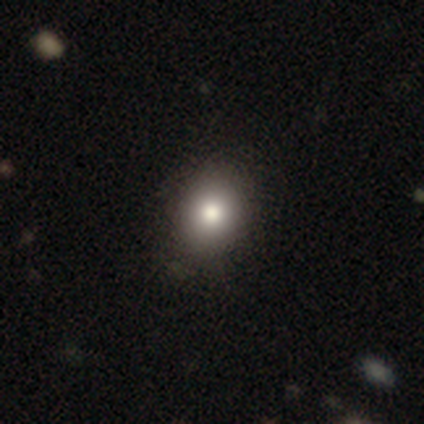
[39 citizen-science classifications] Smooth or featured: smooth — 82% (star or artifact — 10%)
How rounded: round — 62% (in between — 38%)
Merging: none — 49% (minor disturbance — 6%)